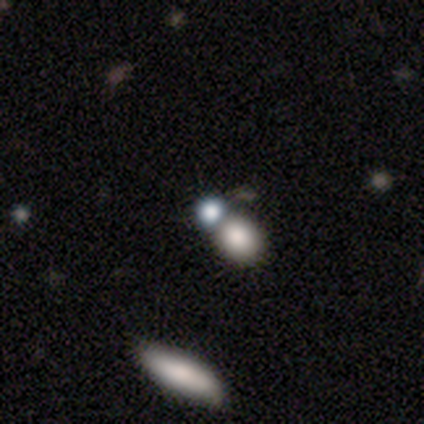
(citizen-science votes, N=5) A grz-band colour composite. It shows a smooth galaxy with no disk features (80%) that is round (100%). Merging: merger (75%).